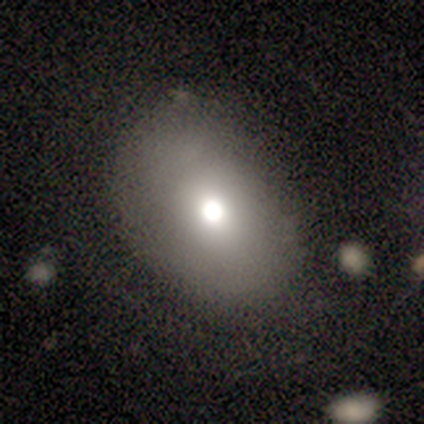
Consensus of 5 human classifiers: Smooth or featured? smooth (100%)
How rounded? in between (100%)
Merging? none (60%)